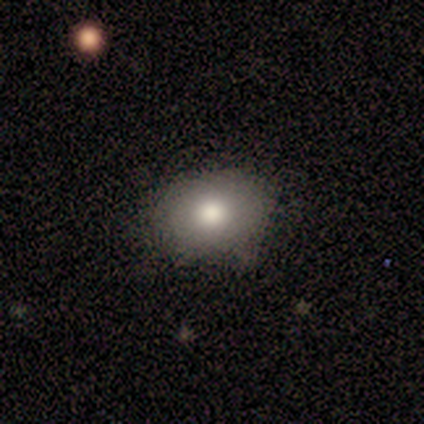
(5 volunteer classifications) A smooth galaxy with no disk features (60%) that is in between round and cigar-shaped (67%). Merging: none (100%).